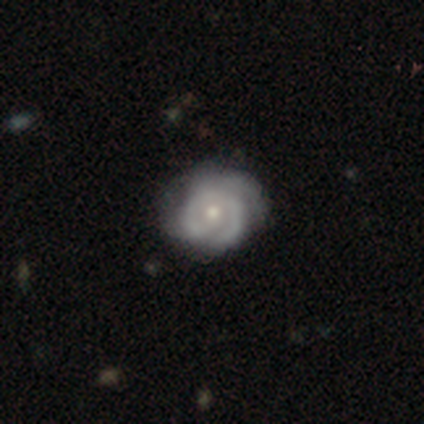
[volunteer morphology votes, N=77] Volunteers were most divided on "bulge size": small: 51%, moderate: 47%, large: 2%, dominant: 0%, none: 0%. Remaining: edge-on disk — no (98%); bar — no (86%); spiral arms — yes (85%); smooth or featured — featured or disk (78%); spiral winding — tight (62%); spiral arm count — can't tell (40%); merging — none (35%).